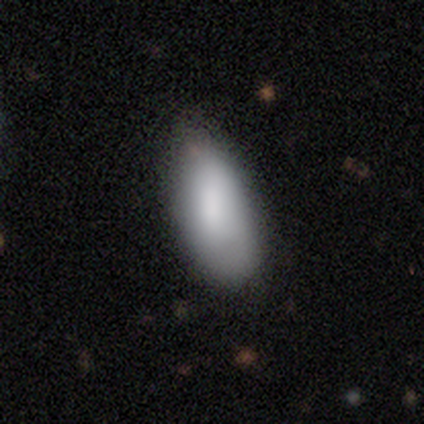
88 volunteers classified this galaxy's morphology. This is clearly a smooth galaxy (81%). How rounded: clearly in between (87%). Merging: possibly none (58%).